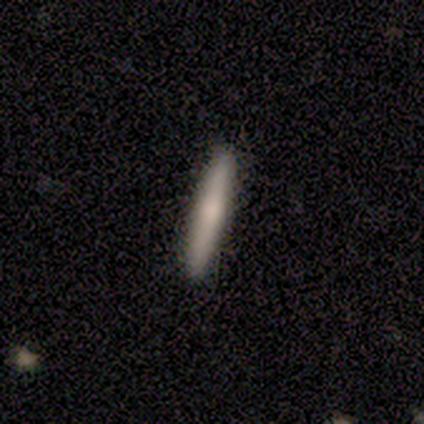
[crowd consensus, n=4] smooth 75%, star or artifact 25%, featured or disk 0%. Down the decision tree: how rounded — cigar-shaped (100%); merging — none (100%).